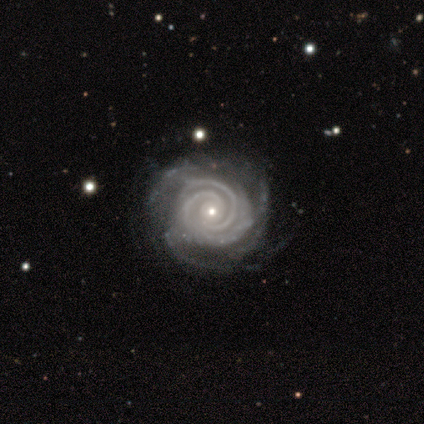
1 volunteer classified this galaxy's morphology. A featured or disk galaxy (100%) with no bar (100%), 2 (100%) tight (100%) spiral arms (100%) and a small central bulge (100%). Merging: none (100%).